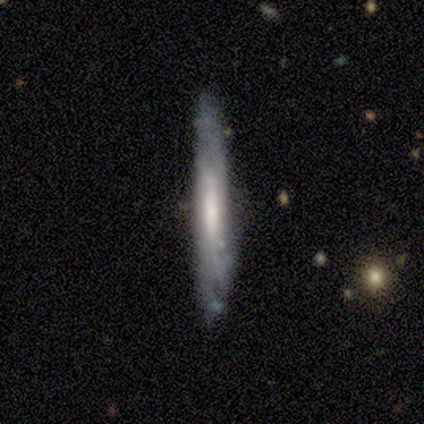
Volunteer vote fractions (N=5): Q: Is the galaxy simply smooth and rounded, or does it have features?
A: featured or disk — 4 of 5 (80%).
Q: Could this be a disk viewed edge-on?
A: yes — 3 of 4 (75%).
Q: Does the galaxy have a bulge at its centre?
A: rounded — 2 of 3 (67%).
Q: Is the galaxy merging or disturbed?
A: none — 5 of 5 (100%).